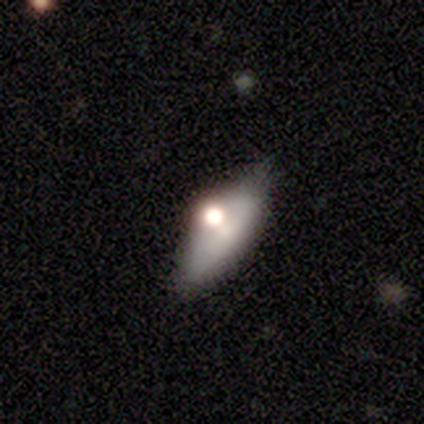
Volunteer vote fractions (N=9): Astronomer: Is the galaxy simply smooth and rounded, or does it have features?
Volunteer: smooth — 56% (runner-up: featured or disk, 33%).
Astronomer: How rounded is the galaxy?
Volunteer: in between — 80%.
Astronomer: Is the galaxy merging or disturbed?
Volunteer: minor disturbance — 50% (runner-up: none, 38%).